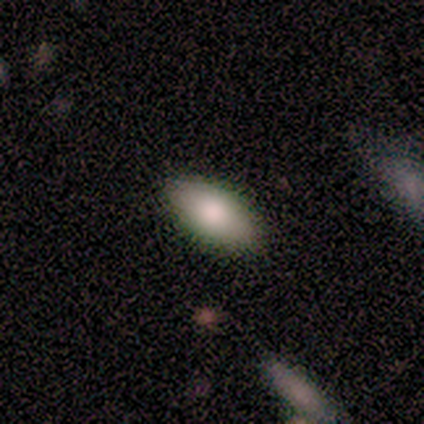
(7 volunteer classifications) Overall: smooth (86%). How rounded: in between (100%). Merging: none (100%).